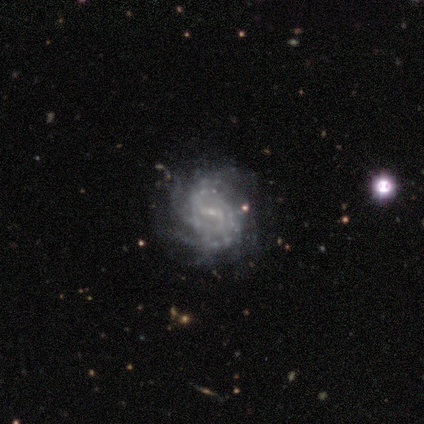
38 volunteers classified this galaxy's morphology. Overall: featured or disk (95%). Edge-on disk: no (97%). Bar: weak (74%). Spiral arms: yes (94%). Spiral arm count: can't tell (52%; 2 18%). Spiral winding: tight (52%; medium 36%). Bulge size: small (83%). Merging: none (68%).